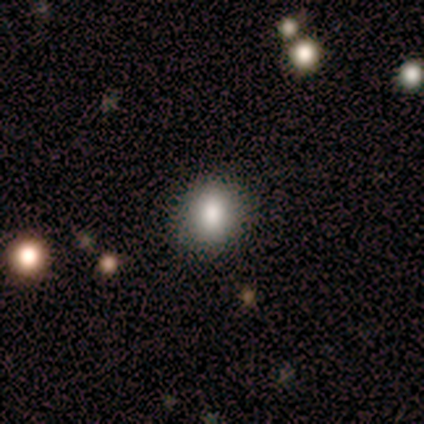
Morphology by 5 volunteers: Smooth or featured: smooth — 80% (featured or disk — 20%)
How rounded: round — 75% (in between — 25%)
Merging: none — 100%